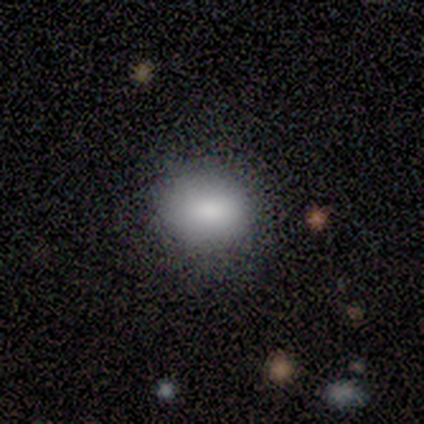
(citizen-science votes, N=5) Volunteers were most divided on "how rounded": in between: 60%, round: 40%, cigar-shaped: 0%. More confident: smooth or featured — smooth (100%); merging — none (60%).